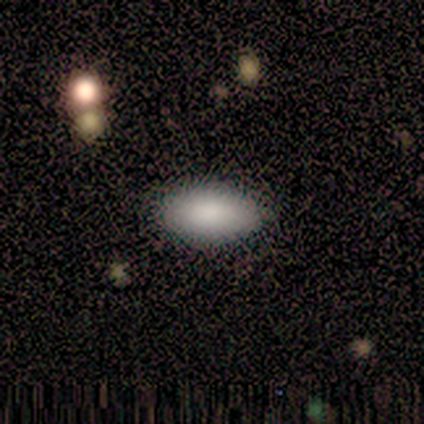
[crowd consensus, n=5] Smooth or featured: smooth — 80% (star or artifact — 20%)
How rounded: in between — 100%
Merging: none — 100%